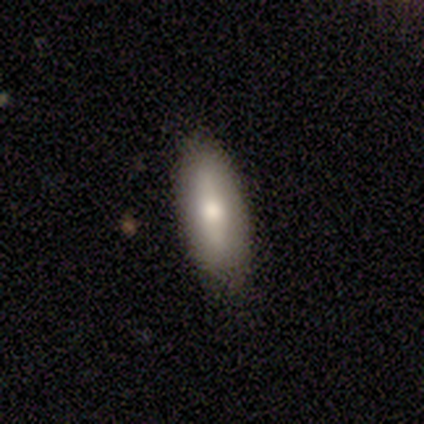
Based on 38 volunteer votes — A smooth galaxy with no disk features (53%) that is in between round and cigar-shaped (95%).

Vote fractions:
- Smooth or featured? smooth: 53% / featured or disk: 37% / star or artifact: 11%
- How rounded? in between: 95% / cigar-shaped: 5% / round: 0%
- Merging? none: 82% / minor disturbance: 18% / major disturbance: 0% / merger: 0%